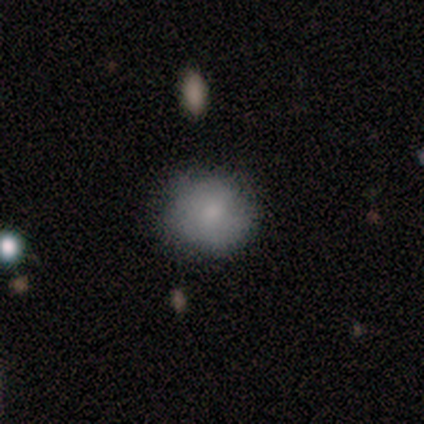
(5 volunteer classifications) smooth 80%, star or artifact 20%, featured or disk 0%. Down the decision tree: how rounded — round (100%); merging — none (100%).